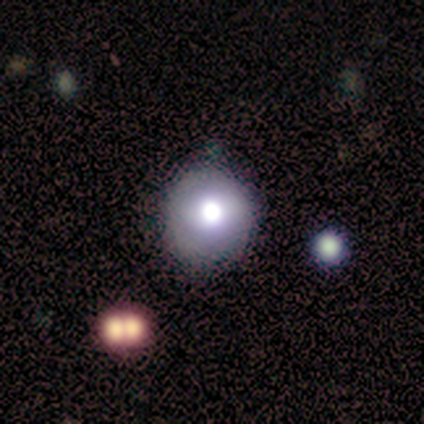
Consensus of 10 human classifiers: Smooth or featured? smooth (70%)
How rounded? round (86%)
Merging? none (78%)